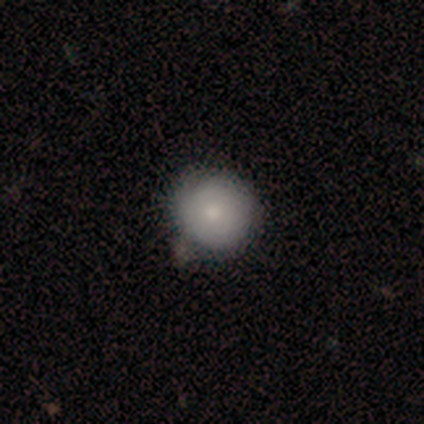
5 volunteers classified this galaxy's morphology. type=smooth (80%); roundness=round (100%); merging=none (100%).